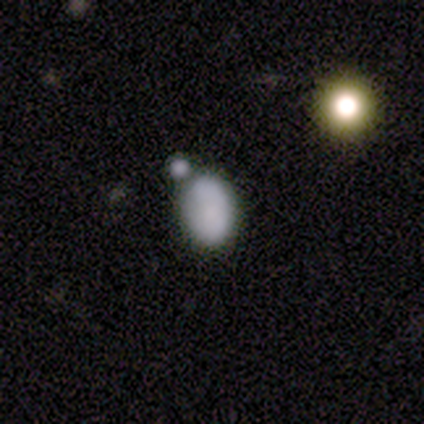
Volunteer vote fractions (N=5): featured or disk 60%, smooth 40%, star or artifact 0%. Down the decision tree: edge-on disk — no (100%); bar — no (100%); spiral arms — no (67%); bulge size — none (100%); merging — merger (60%).